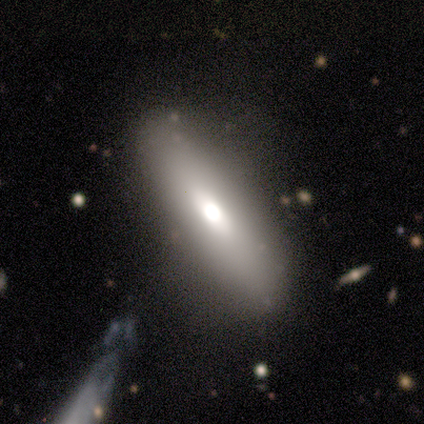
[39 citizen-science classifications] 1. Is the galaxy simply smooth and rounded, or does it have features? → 72% smooth, 21% featured or disk, 8% star or artifact.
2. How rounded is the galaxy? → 61% cigar-shaped, 39% in between, 0% round.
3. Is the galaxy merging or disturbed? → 69% none, 22% minor disturbance, 8% major disturbance, 0% merger.